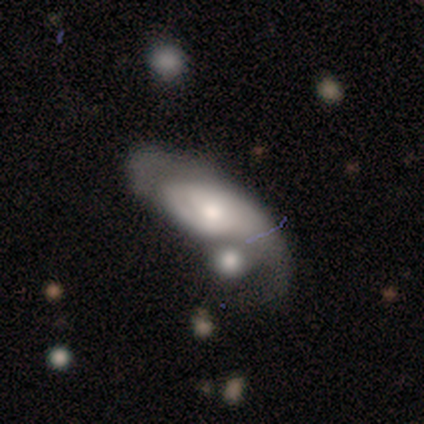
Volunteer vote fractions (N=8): This is clearly a featured or disk galaxy (100%). It is likely not viewed edge-on (75%). Bar: likely no (67%). Spiral arm pattern: clearly yes (83%). Spiral arm count: likely 1 (60%). Spiral winding: marginally medium (40%, tied with loose). Central bulge: likely small (67%). Merging: marginally major disturbance (38%, tied with merger).